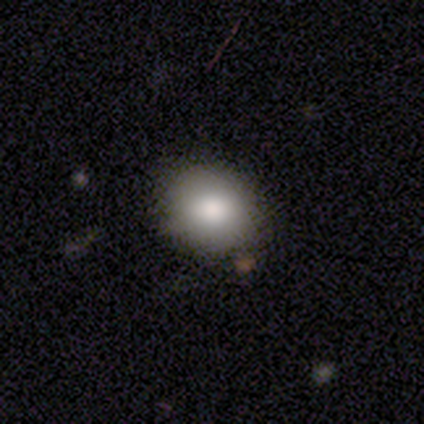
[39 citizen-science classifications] Overall: smooth (82%). How rounded: round (62%; in between 38%). Merging: none (76%).